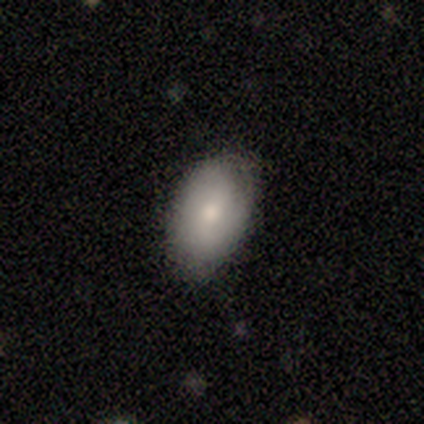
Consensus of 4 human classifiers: Smooth or featured: smooth — 75% (featured or disk — 25%)
How rounded: in between — 67% (round — 33%)
Merging: none — 50% (tied with minor disturbance — 50%)